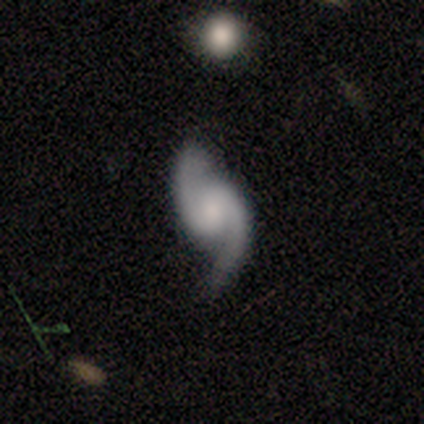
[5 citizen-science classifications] This appears to be a featured or disk galaxy (100%) with a weak bar (40%, tied with no), 2 (100%) loose (80%) spiral arms (100%) and a small central bulge (60%). Merging: none (100%).